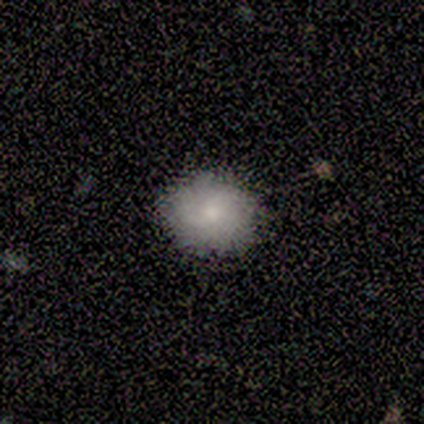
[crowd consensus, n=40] Smooth or featured?
  - smooth: 72% *
  - featured or disk: 18%
  - star or artifact: 10%
How rounded?
  - round: 69% *
  - in between: 31%
  - cigar-shaped: 0%
Merging?
  - none: 89% *
  - minor disturbance: 11%
  - major disturbance: 0%
  - merger: 0%